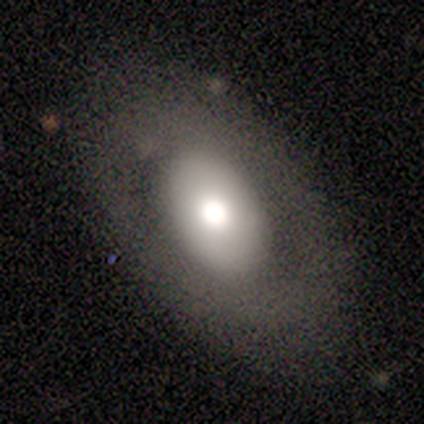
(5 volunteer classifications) Volunteers were most divided on "smooth or featured": smooth: 80%, star or artifact: 20%, featured or disk: 0%. More confident: how rounded — in between (100%); merging — none (100%).